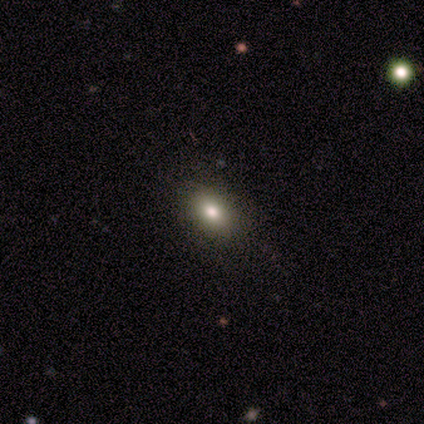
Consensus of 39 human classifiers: Smooth or featured? 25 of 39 (64%) said smooth. How rounded? 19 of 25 (76%) said in between. Merging? 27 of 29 (93%) said none.